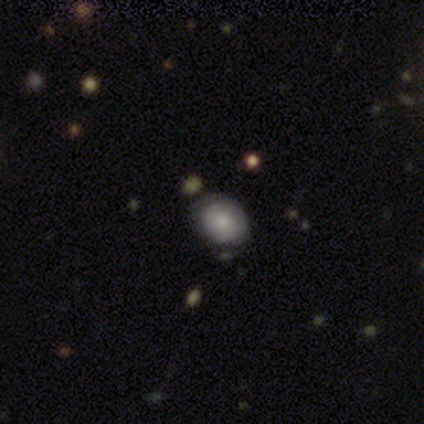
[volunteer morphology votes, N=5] Volunteers were most divided on "how rounded" (2-way tie): round: 50%, in between: 50%, cigar-shaped: 0%. More confident: smooth or featured — smooth (80%); merging — none (60%).